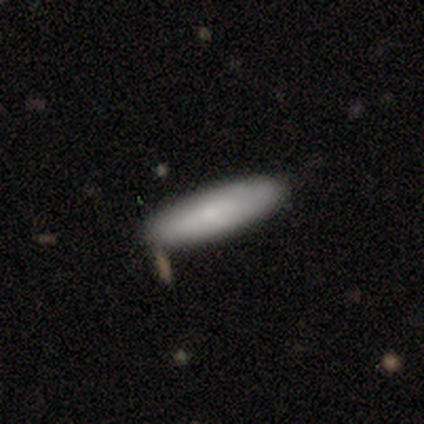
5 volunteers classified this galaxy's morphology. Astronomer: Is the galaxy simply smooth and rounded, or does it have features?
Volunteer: smooth — 80%.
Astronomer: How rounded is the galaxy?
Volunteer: in between — 50%, tied with cigar-shaped at 50%.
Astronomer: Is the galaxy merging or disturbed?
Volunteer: none — 80%.